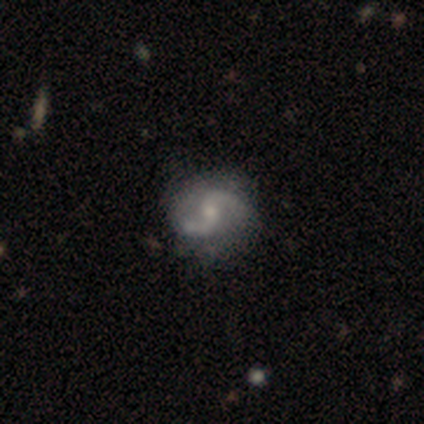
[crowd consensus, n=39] smooth-or-featured: featured or disk: 82% | smooth: 15% | star or artifact: 3%
  disk-edge-on: no: 100% | yes: 0%
    bar: weak: 44% | no: 41% | strong: 16%
    has-spiral-arms: yes: 94% | no: 6%
      spiral-winding: loose: 70% | medium: 27% | tight: 3%
      spiral-arm-count: 2: 100% | 1: 0% | 3: 0% | 4: 0% | more than 4: 0% | can't tell: 0%
    bulge-size: small: 62% | moderate: 31% | none: 6% | dominant: 0% | large: 0%
  merging: none: 68% | minor disturbance: 21% | major disturbance: 11% | merger: 0%